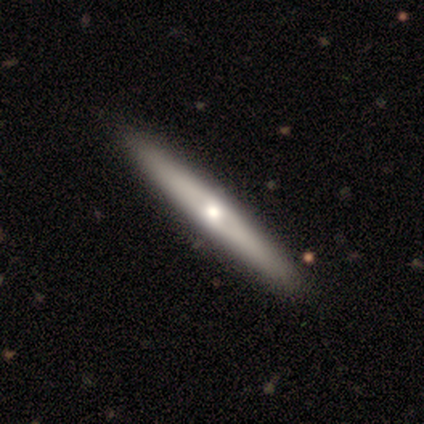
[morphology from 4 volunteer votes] A smooth galaxy with no disk features (50%, tied with featured or disk) that is cigar-shaped (100%). Merging: none (100%).